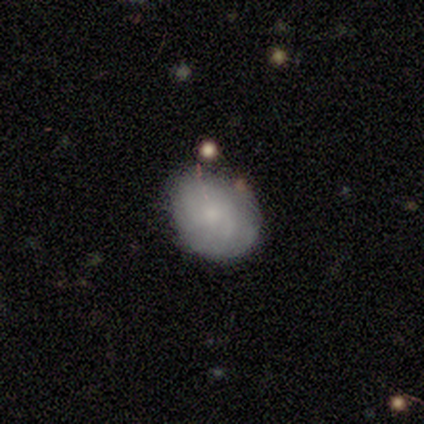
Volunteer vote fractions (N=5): A featured or disk galaxy (60%) with no bar (100%), no spiral arms (67%) and a moderate central bulge (33%, tied with small and none). Merging: none (40%).